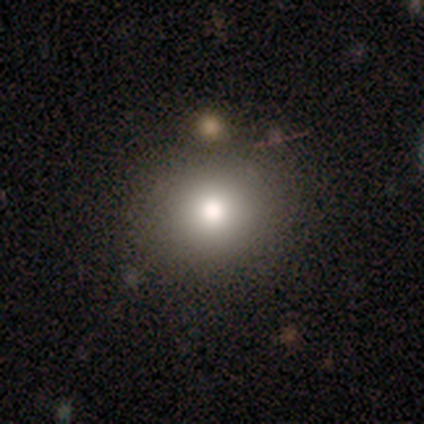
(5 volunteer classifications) Smooth or featured? smooth (100%)
How rounded? round (100%)
Merging? none (100%)